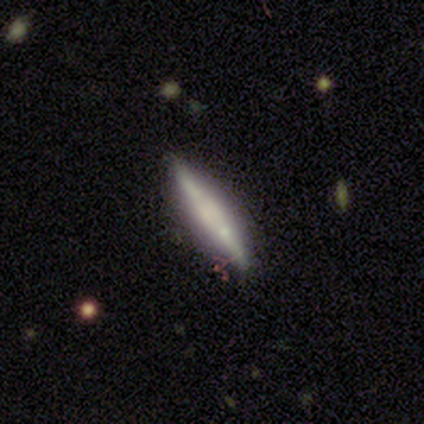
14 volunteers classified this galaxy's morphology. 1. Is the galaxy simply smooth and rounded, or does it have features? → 57% featured or disk, 36% smooth, 7% star or artifact.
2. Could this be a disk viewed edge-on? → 88% yes, 12% no.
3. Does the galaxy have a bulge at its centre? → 71% boxy, 29% none, 0% rounded.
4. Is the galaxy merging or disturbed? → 62% none, 31% minor disturbance, 8% merger, 0% major disturbance.